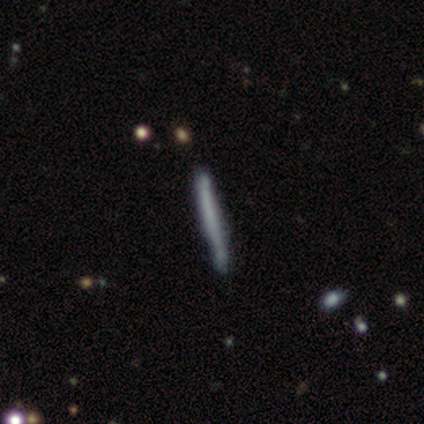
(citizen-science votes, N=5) Smooth or featured? 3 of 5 (60%) said smooth. How rounded? 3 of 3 (100%) said cigar-shaped. Merging? 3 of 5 (60%) said none.